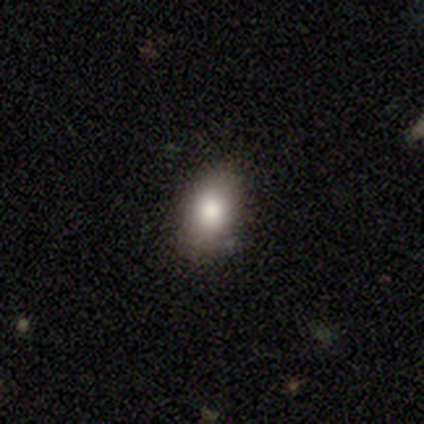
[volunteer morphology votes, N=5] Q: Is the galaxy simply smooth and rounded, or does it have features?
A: smooth — 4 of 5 (80%).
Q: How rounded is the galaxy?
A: in between — 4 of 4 (100%).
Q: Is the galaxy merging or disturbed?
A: none — 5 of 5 (100%).